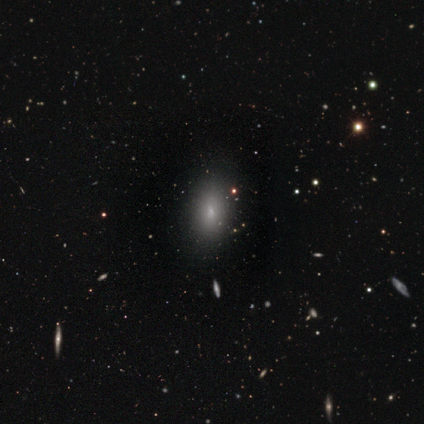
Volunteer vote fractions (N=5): smooth_or_featured: smooth (p=0.80) [alt: star or artifact p=0.20]
how_rounded: in between (p=0.50) [tied with: cigar-shaped p=0.50]
merging: none (p=0.75) [alt: minor disturbance p=0.25]